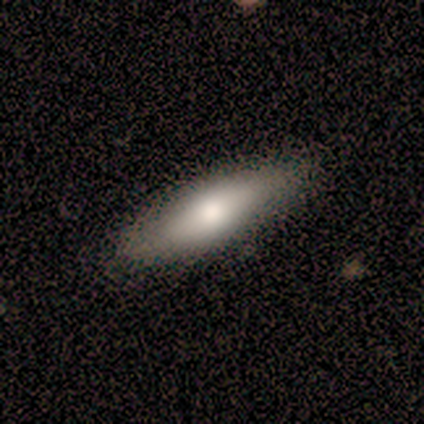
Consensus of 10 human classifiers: Overall: smooth (50%, tied with featured or disk). How rounded: in between (80%). Merging: none (100%).